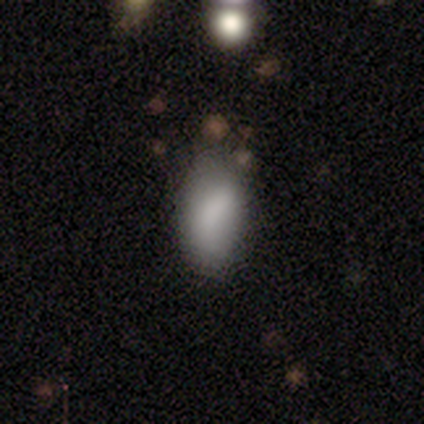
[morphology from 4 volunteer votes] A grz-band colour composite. It shows a smooth galaxy with no disk features (100%) that is in between round and cigar-shaped (100%). Merging: none (50%).